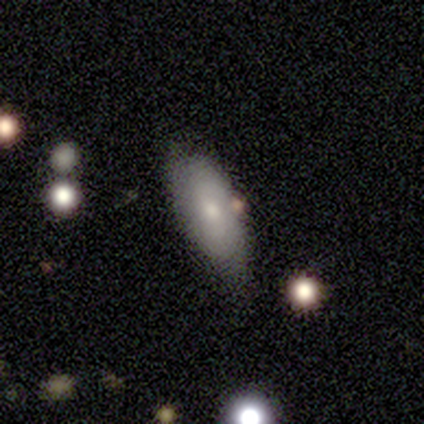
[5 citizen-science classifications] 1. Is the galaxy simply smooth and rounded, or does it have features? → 80% smooth, 20% star or artifact, 0% featured or disk.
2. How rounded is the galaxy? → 75% in between, 25% round, 0% cigar-shaped.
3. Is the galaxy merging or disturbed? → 75% none, 25% minor disturbance, 0% major disturbance, 0% merger.